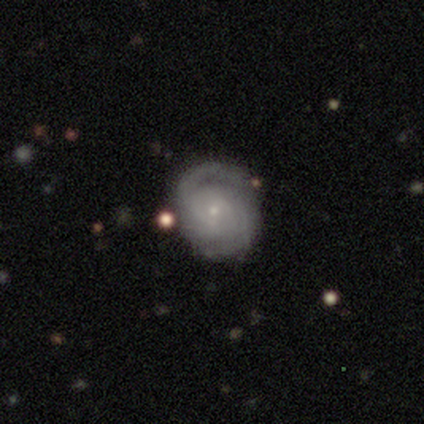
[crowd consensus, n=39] Smooth or featured? 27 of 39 (69%) said featured or disk. Edge-on disk? 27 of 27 (100%) said no. Bar? 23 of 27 (85%) said no. Spiral arms? 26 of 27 (96%) said yes. Spiral winding? 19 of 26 (73%) said tight. Spiral arm count? 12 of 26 (46%) said 2. Bulge size? 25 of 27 (93%) said small. Merging? 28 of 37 (76%) said none.